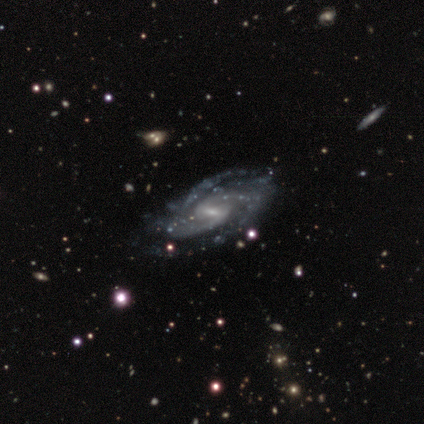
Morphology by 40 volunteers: A featured or disk galaxy (85%) with a weak bar (79%), 2 (39%) tight (52%) spiral arms (100%) and a small central bulge (61%).

Vote fractions:
- Smooth or featured? featured or disk: 85% / smooth: 8% / star or artifact: 8%
- Edge-on disk? no: 97% / yes: 3%
- Bar? weak: 79% / strong: 15% / no: 6%
- Spiral arms? yes: 100% / no: 0%
- Spiral winding? tight: 52% / medium: 36% / loose: 12%
- Spiral arm count? 2: 39% / 3: 24% / 4: 12% / more than 4: 12% / can't tell: 12% / 1: 0%
- Bulge size? small: 61% / moderate: 30% / none: 6% / large: 3% / dominant: 0%
- Merging? none: 68% / minor disturbance: 24% / major disturbance: 5% / merger: 3%